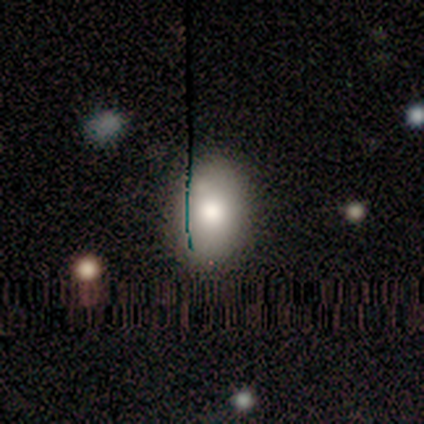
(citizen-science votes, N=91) Volunteers were most divided on "smooth or featured": smooth: 67%, star or artifact: 19%, featured or disk: 14%. More confident: merging — none (82%); how rounded — in between (79%).